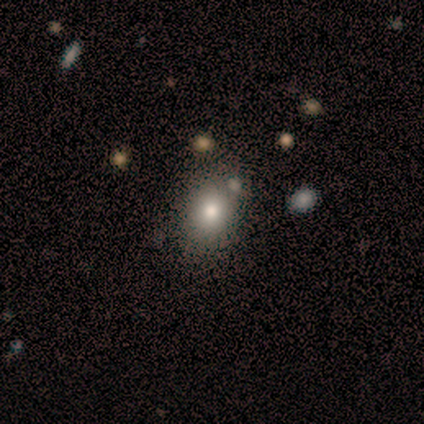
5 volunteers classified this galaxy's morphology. This is clearly a smooth galaxy (100%). How rounded: clearly in between (80%). Merging: likely minor disturbance (60%).